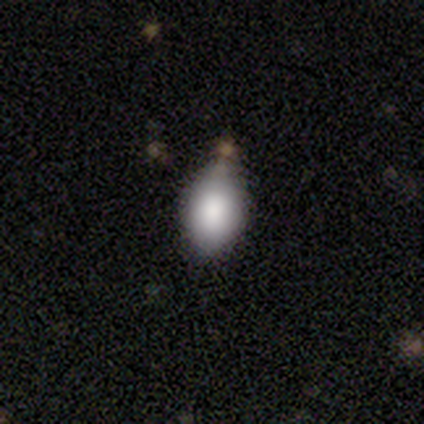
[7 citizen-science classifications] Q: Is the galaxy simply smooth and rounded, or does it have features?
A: smooth — 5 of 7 (71%).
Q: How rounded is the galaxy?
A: in between — 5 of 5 (100%).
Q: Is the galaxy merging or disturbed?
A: minor disturbance — 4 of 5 (80%).